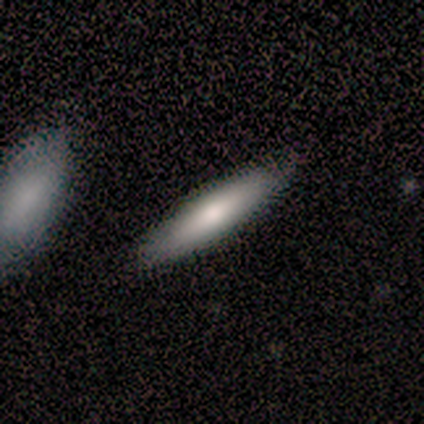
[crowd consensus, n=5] This appears to be a smooth galaxy with no disk features (80%) that is in between round and cigar-shaped (75%). Merging: none (60%).